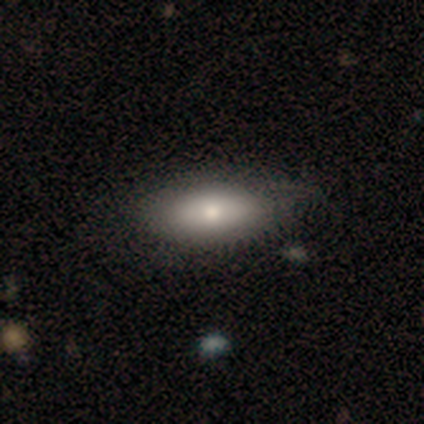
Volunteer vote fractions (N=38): This is clearly a smooth galaxy (84%). How rounded: clearly in between (91%). Merging: marginally none (41%).